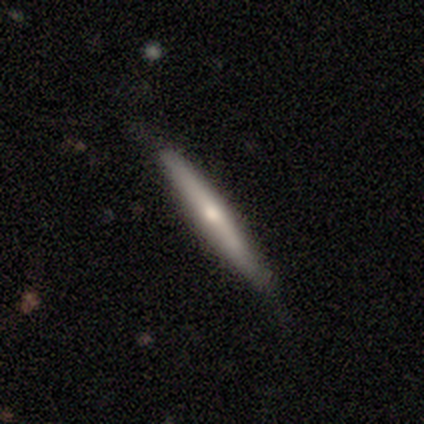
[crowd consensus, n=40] Overall: smooth (60%; featured or disk 38%). How rounded: cigar-shaped (96%). Merging: none (79%).